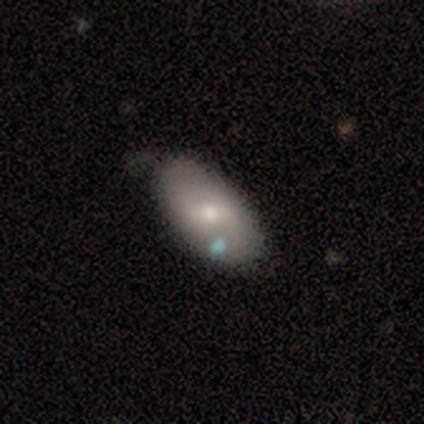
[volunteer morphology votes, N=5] Smooth or featured?
  - featured or disk: 60% *
  - smooth: 40%
  - star or artifact: 0%
Edge-on disk?
  - no: 100% *
  - yes: 0%
Bar?
  - strong: 33% * (tied)
  - weak: 33% * (tied)
  - no: 33% * (tied)
Spiral arms?
  - no: 67% *
  - yes: 33%
Bulge size?
  - moderate: 67% *
  - small: 33%
  - dominant: 0%
  - large: 0%
  - none: 0%
Merging?
  - none: 60% *
  - minor disturbance: 40%
  - major disturbance: 0%
  - merger: 0%